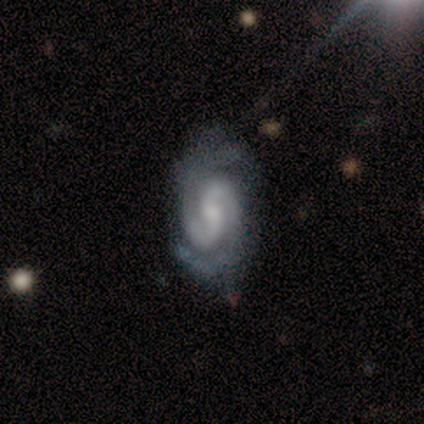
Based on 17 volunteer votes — A featured or disk galaxy (94%) with no bar (56%), 2 (100%) tight (50%, tied with medium) spiral arms (100%) and a small central bulge (50%). Merging: none (94%).